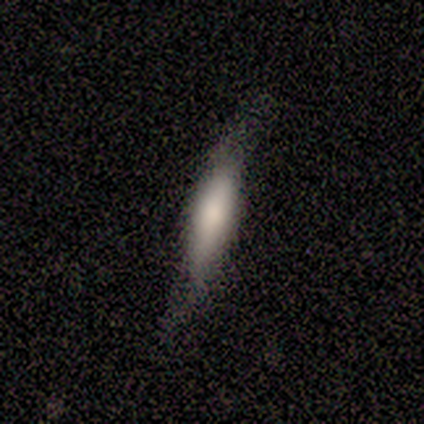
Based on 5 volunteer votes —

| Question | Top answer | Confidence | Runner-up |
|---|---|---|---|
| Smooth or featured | smooth | 60% | featured or disk (40%) |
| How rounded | cigar-shaped | 67% | in between (33%) |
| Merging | none | 60% | minor disturbance (40%) |